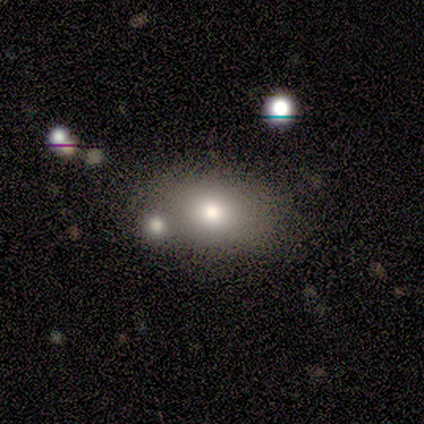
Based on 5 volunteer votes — smooth-or-featured: smooth: 60% | featured or disk: 40% | star or artifact: 0%
  how-rounded: in between: 100% | round: 0% | cigar-shaped: 0%
  merging: none: 40% (tied) | minor disturbance: 40% (tied) | major disturbance: 20% | merger: 0%